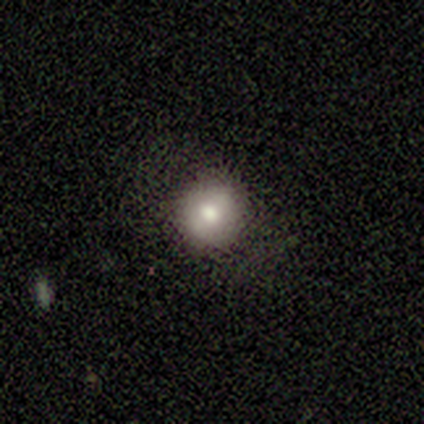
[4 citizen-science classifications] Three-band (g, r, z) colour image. It shows a smooth galaxy with no disk features (75%) that is round (100%). Merging: none (100%).